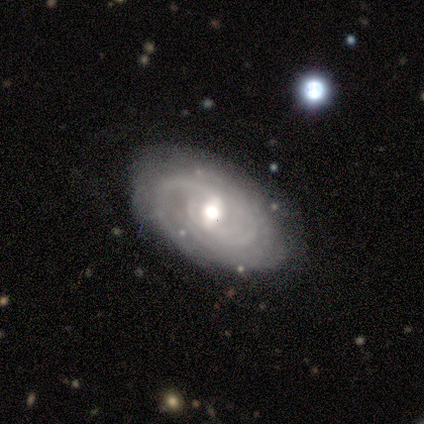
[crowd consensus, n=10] featured or disk 100%, smooth 0%, star or artifact 0%. Down the decision tree: edge-on disk — no (100%); bar — weak (70%); spiral arms — yes (100%); spiral arm count — can't tell (50%); spiral winding — tight (90%); bulge size — moderate (50%); merging — none (80%).